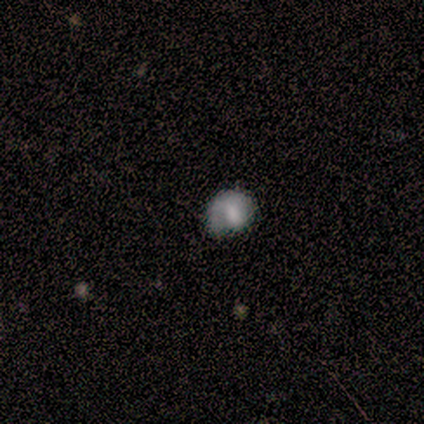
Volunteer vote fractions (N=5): Morphology: type=featured or disk (60%); edge-on=no (100%); bar=no (67%); spiral arms=no (100%); bulge=large (33%, tied with small and none); merging=none (40%, tied with minor disturbance).